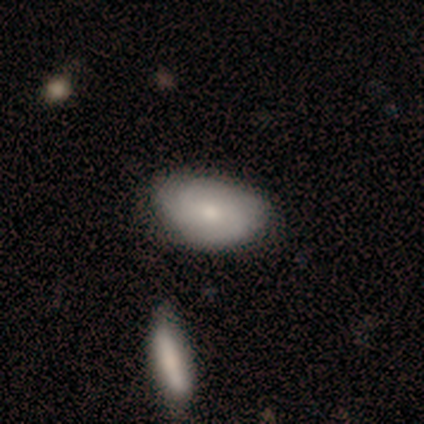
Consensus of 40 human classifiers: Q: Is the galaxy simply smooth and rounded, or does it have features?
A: smooth — 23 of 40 (57%).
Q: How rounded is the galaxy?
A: in between — 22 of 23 (96%).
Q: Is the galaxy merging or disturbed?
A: none — 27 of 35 (77%).